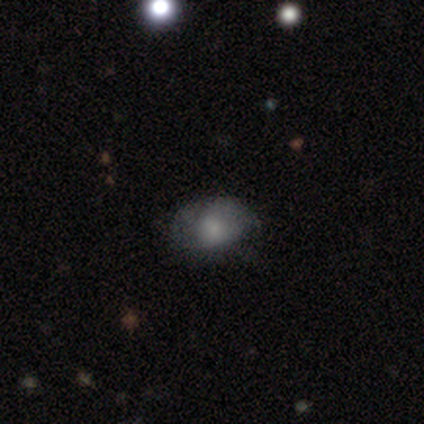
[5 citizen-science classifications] smooth_or_featured: smooth (p=0.40) [tied with: star or artifact p=0.40]
how_rounded: in between (p=1.00)
merging: none (p=0.67) [alt: major disturbance p=0.33]